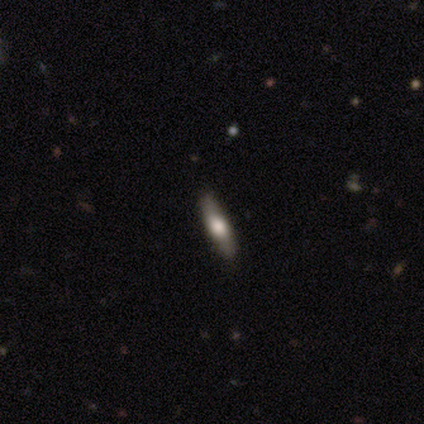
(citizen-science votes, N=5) This appears to be a featured or disk galaxy (60%) viewed edge-on (67%) with a rounded central bulge (100%). Merging: none (100%).